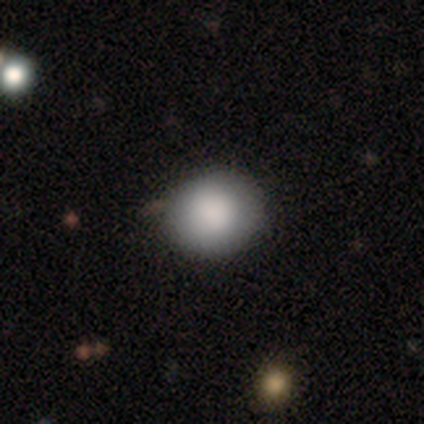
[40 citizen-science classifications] Volunteers were most divided on "merging": none: 53%, minor disturbance: 8%, major disturbance: 3%, merger: 3%. More confident: how rounded — round (86%); smooth or featured — smooth (72%).